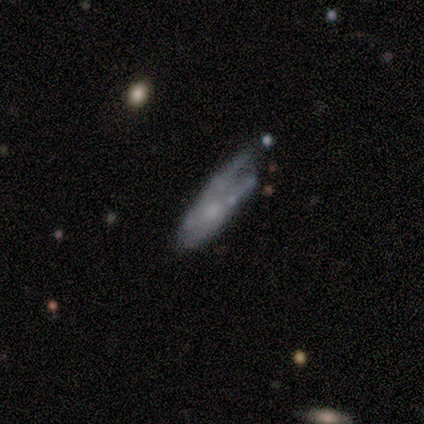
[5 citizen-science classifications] This is marginally a smooth galaxy (40%, tied with featured or disk). How rounded: clearly in between (100%). Merging: likely minor disturbance (75%).